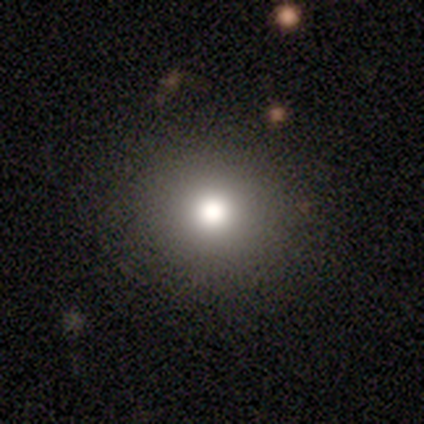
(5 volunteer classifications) A smooth galaxy with no disk features (80%) that is round (100%). Merging: none (75%).